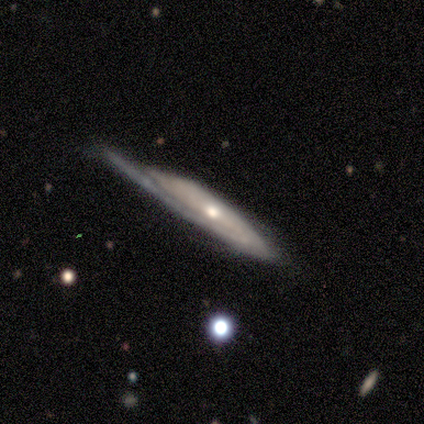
smooth_or_featured: featured or disk (p=0.72) [alt: smooth p=0.20]
disk_edge_on: no (p=0.59) [alt: yes p=0.41]
bar: no (p=0.94) [alt: weak p=0.06]
has_spiral_arms: yes (p=0.82) [alt: no p=0.18]
spiral_winding: medium (p=0.43) [alt: tight p=0.36]
spiral_arm_count: 1 (p=0.50) [alt: can't tell p=0.36]
bulge_size: moderate (p=0.71) [alt: small p=0.24]
merging: minor disturbance (p=0.32) [alt: none p=0.30]